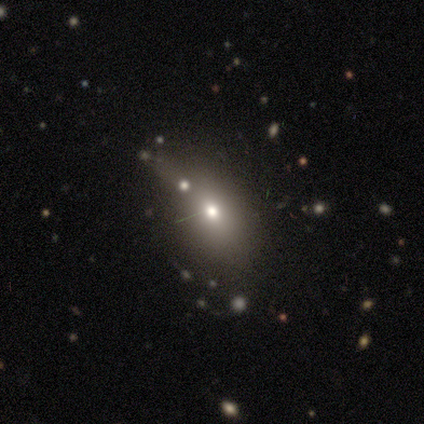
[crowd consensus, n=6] Q: Smooth or featured?
A: smooth (100%)
Q: How rounded?
A: in between (83%); runner-up: round (17%)
Q: Merging?
A: none (50%); runner-up: merger (33%)